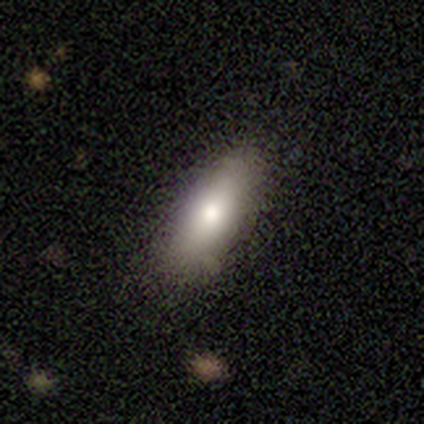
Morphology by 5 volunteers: This appears to be a smooth galaxy with no disk features (100%) that is in between round and cigar-shaped (100%). Merging: none (100%).